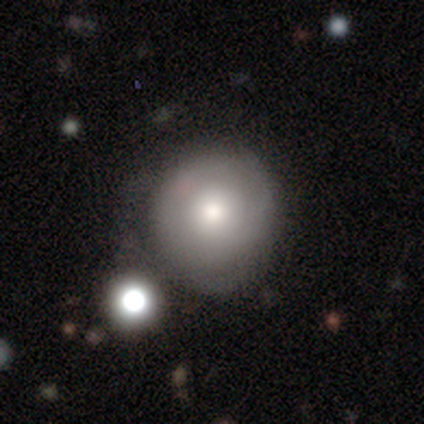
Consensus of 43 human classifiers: Volunteers were most divided on "smooth or featured": smooth: 67%, featured or disk: 23%, star or artifact: 9%. More confident: how rounded — round (100%); merging — none (72%).